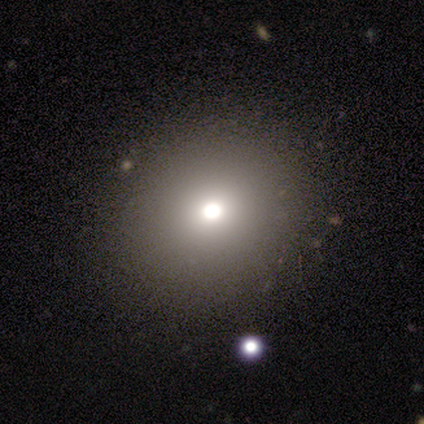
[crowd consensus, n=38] This is clearly a smooth galaxy (82%). How rounded: clearly round (84%). Merging: clearly none (88%).